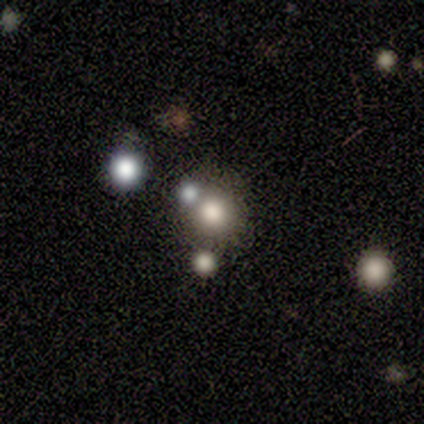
smooth 40% (tied), star or artifact 40% (tied), featured or disk 20%. Down the decision tree: how rounded — round (100%); merging — merger (67%).